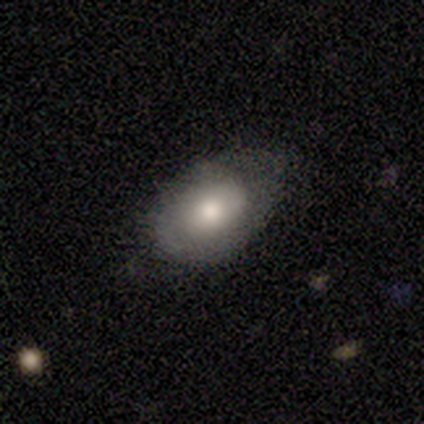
Volunteers were most divided on "merging": minor disturbance: 50%, none: 25%, major disturbance: 25%, merger: 0%. More confident: smooth or featured — smooth (100%); how rounded — in between (100%).